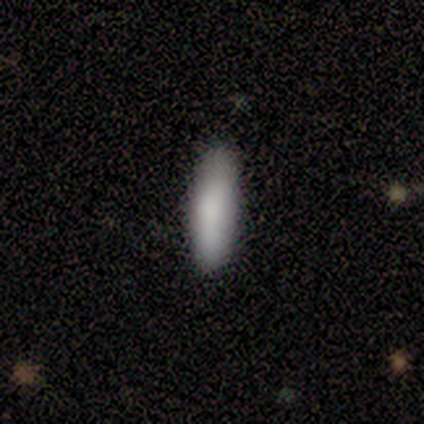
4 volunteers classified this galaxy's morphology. Q: Smooth or featured?
A: smooth (100%)
Q: How rounded?
A: cigar-shaped (75%); runner-up: in between (25%)
Q: Merging?
A: none (75%); runner-up: minor disturbance (25%)